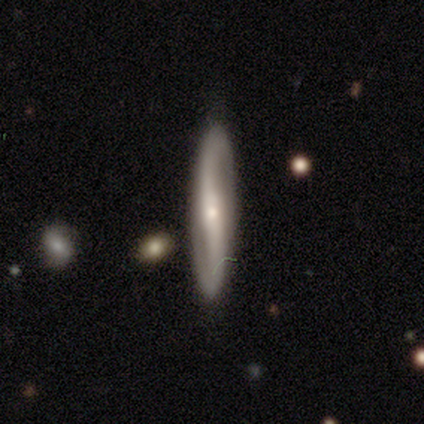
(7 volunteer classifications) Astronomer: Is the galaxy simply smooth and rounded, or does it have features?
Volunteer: featured or disk — 86%.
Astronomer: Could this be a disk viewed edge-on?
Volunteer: yes — 50%, tied with no at 50%.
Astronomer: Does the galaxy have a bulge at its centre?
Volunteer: rounded — 67%.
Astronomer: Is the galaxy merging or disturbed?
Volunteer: none — 71%.